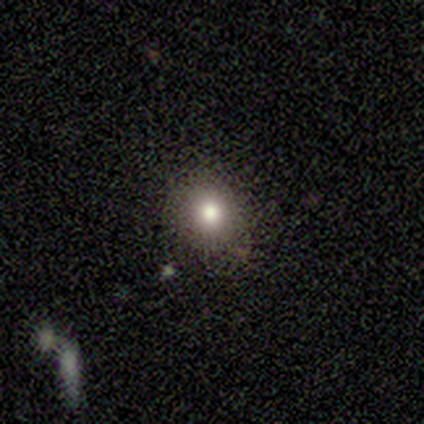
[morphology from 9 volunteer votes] type=smooth (78%); roundness=round (100%); merging=none (89%).